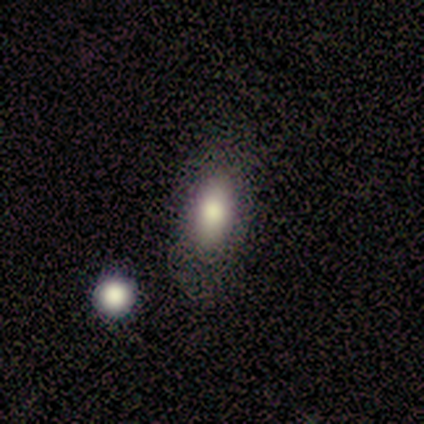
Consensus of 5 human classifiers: Smooth or featured: smooth — 80% (featured or disk — 20%)
How rounded: in between — 75% (round — 25%)
Merging: none — 80% (merger — 20%)